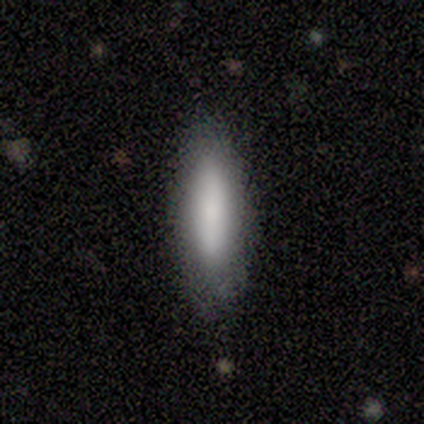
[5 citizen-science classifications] This appears to be a smooth galaxy with no disk features (60%) that is cigar-shaped (67%). Merging: none (100%).